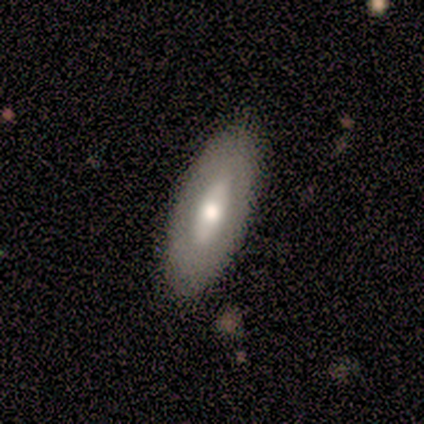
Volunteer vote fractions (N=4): smooth_or_featured: smooth (p=0.50) [tied with: featured or disk p=0.50]
how_rounded: in between (p=0.50) [tied with: cigar-shaped p=0.50]
merging: none (p=1.00)